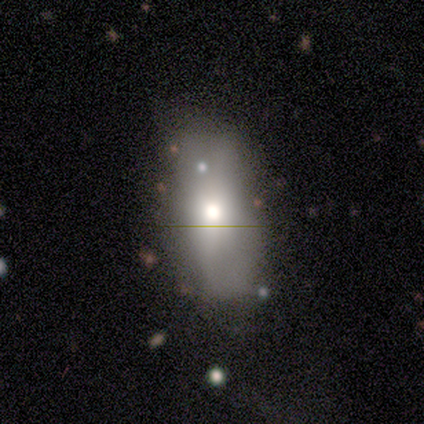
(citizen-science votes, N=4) Q: Smooth or featured?
A: smooth (75%); runner-up: featured or disk (25%)
Q: How rounded?
A: in between (67%); runner-up: cigar-shaped (33%)
Q: Merging?
A: none (50%); tied with: minor disturbance (50%)